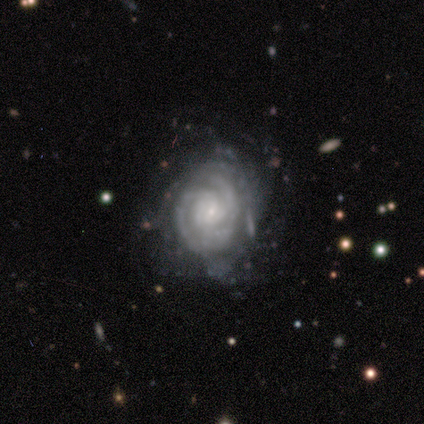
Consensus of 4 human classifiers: smooth-or-featured: featured or disk: 100% | smooth: 0% | star or artifact: 0%
  disk-edge-on: no: 100% | yes: 0%
    bar: weak: 50% | strong: 25% | no: 25%
    has-spiral-arms: yes: 100% | no: 0%
      spiral-winding: medium: 75% | tight: 25% | loose: 0%
      spiral-arm-count: can't tell: 50% | 3: 25% | more than 4: 25% | 1: 0% | 2: 0% | 4: 0%
    bulge-size: small: 100% | dominant: 0% | large: 0% | moderate: 0% | none: 0%
  merging: minor disturbance: 50% | none: 25% | major disturbance: 25% | merger: 0%